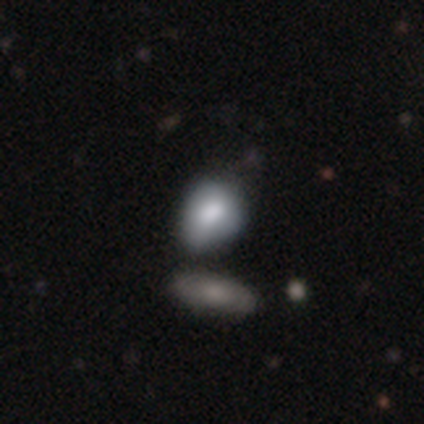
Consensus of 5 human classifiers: A smooth galaxy with no disk features (80%) that is in between round and cigar-shaped (75%). Merging: minor disturbance (80%).